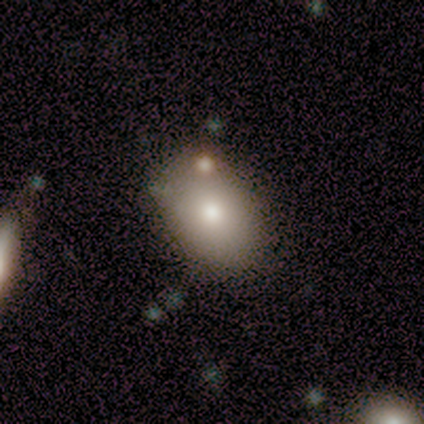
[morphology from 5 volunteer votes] smooth-or-featured: smooth: 100% | featured or disk: 0% | star or artifact: 0%
  how-rounded: in between: 80% | round: 20% | cigar-shaped: 0%
  merging: none: 60% | minor disturbance: 20% | merger: 20% | major disturbance: 0%